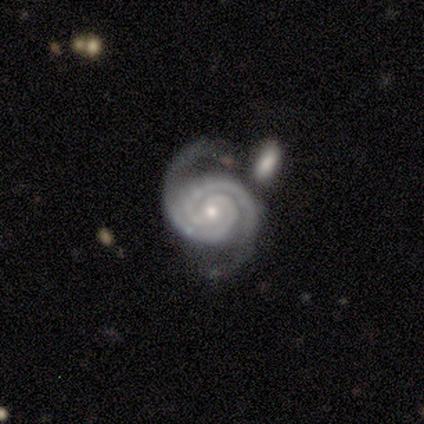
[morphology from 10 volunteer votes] This is clearly a featured or disk galaxy (100%). It is clearly not viewed edge-on (100%). Bar: likely no (70%). Spiral arm pattern: clearly yes (100%). Spiral arm count: clearly 2 (100%). Spiral winding: clearly tight (90%). Central bulge: likely moderate (60%). Merging: likely none (70%).